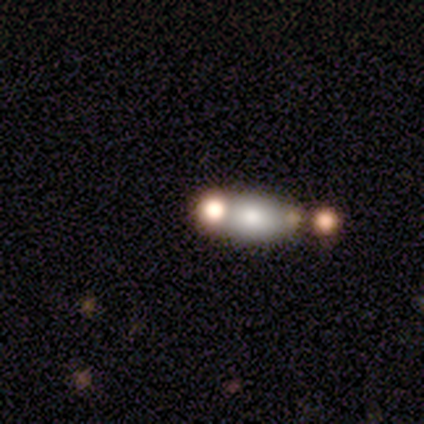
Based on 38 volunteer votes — A smooth galaxy with no disk features (55%) that is in between round and cigar-shaped (48%).

Vote fractions:
- Smooth or featured? smooth: 55% / star or artifact: 29% / featured or disk: 16%
- How rounded? in between: 48% / round: 29% / cigar-shaped: 24%
- Merging? merger: 59% / none: 30% / major disturbance: 7% / minor disturbance: 4%